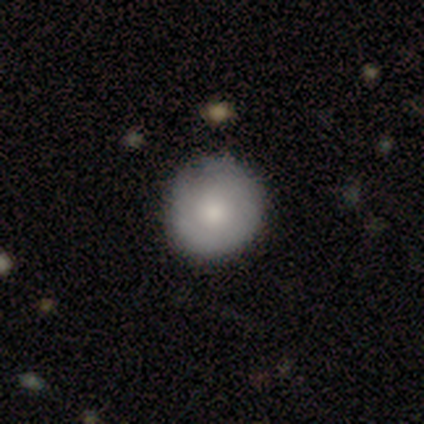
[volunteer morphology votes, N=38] This is likely a smooth galaxy (76%). How rounded: clearly round (97%). Merging: likely none (73%).